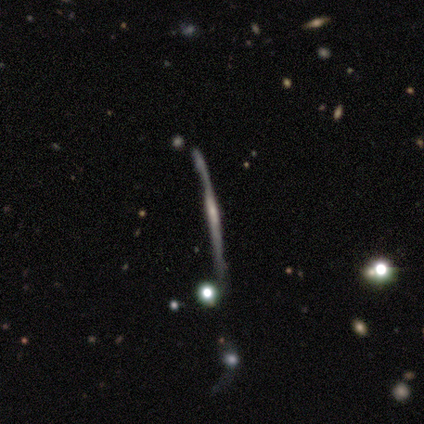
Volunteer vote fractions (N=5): Overall: featured or disk (100%). Edge-on disk: yes (80%). Edge-on bulge: none (75%). Merging: none (40%, tied with minor disturbance).